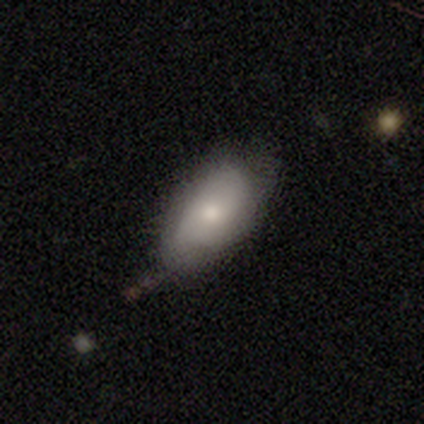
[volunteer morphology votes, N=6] smooth 67%, featured or disk 33%, star or artifact 0%. Down the decision tree: how rounded — in between (100%); merging — none (50%).